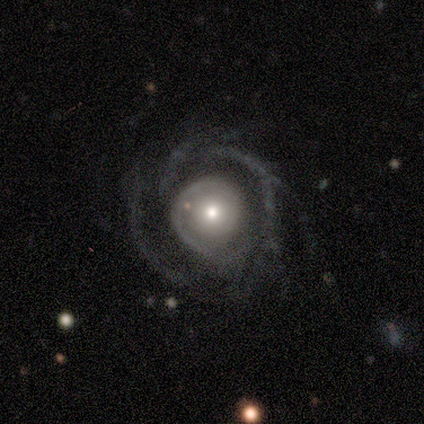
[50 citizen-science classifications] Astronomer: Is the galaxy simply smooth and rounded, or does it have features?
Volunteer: featured or disk — 86%.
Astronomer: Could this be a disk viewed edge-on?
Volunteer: no — 95%.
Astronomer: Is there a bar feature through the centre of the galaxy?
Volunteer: no — 88%.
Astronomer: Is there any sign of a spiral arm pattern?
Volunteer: yes — 88%.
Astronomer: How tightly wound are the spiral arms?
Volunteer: tight — 42% (runner-up: medium, 39%).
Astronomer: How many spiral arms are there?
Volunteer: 2 — 31% (runner-up: can't tell, 19%).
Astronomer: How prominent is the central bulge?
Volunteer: moderate — 61%.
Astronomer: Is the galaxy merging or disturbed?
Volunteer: major disturbance — 42% (runner-up: none, 40%).